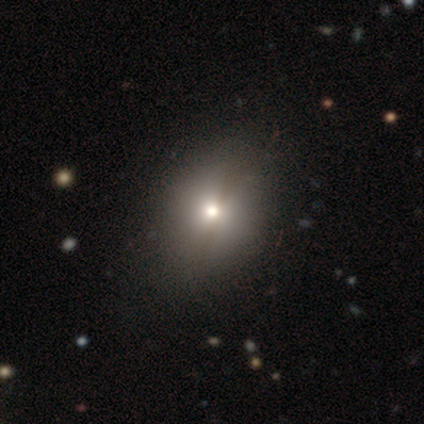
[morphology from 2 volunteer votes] A smooth galaxy with no disk features (50%, tied with star or artifact) that is round (100%).

Vote fractions:
- Smooth or featured? smooth: 50% (tied) / star or artifact: 50% (tied) / featured or disk: 0%
- How rounded? round: 100% / in between: 0% / cigar-shaped: 0%
- Merging? none: 100% / minor disturbance: 0% / major disturbance: 0% / merger: 0%